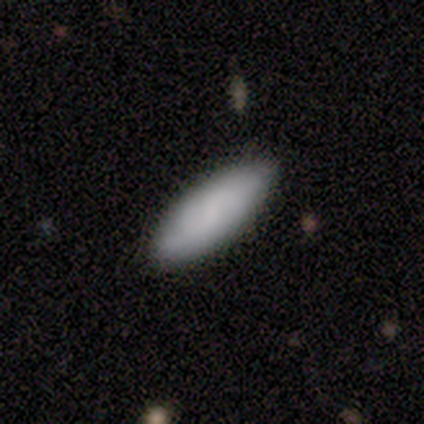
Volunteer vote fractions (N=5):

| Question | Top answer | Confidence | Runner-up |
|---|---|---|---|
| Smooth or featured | smooth | 100% | — |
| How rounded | in between | 60% | cigar-shaped (40%) |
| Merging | none | 100% | — |